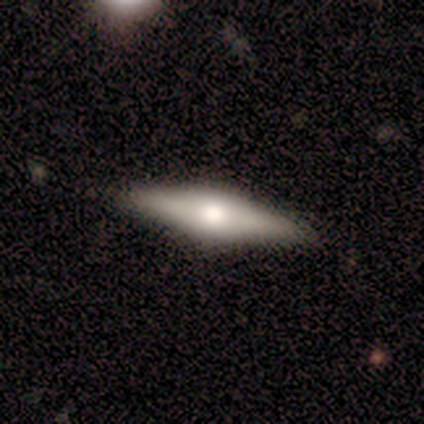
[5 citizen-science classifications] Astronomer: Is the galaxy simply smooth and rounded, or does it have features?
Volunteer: featured or disk — 80%.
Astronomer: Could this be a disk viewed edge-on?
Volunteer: yes — 100%.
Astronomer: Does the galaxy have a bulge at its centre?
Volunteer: rounded — 75%.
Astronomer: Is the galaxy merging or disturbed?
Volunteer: none — 80%.